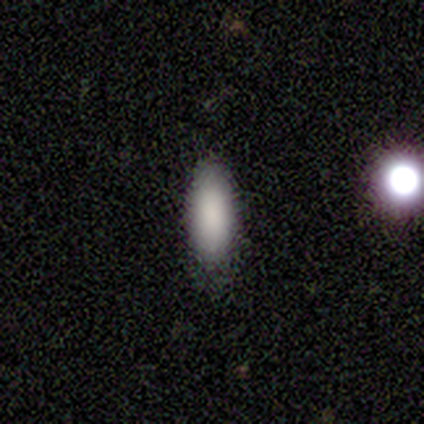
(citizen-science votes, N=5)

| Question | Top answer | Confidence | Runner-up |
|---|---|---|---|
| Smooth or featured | smooth | 100% | — |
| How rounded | in between | 80% | cigar-shaped (20%) |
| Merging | none | 80% | minor disturbance (20%) |